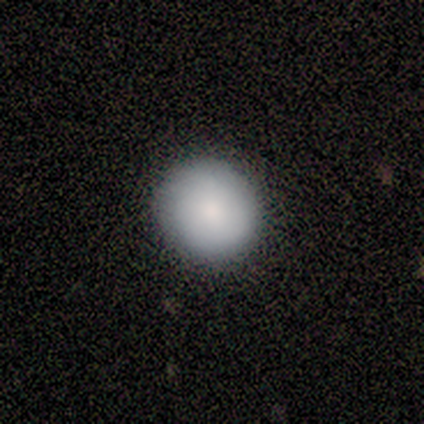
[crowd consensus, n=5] Consensus on every question: smooth or featured — smooth (100%); how rounded — round (100%); merging — none (100%).